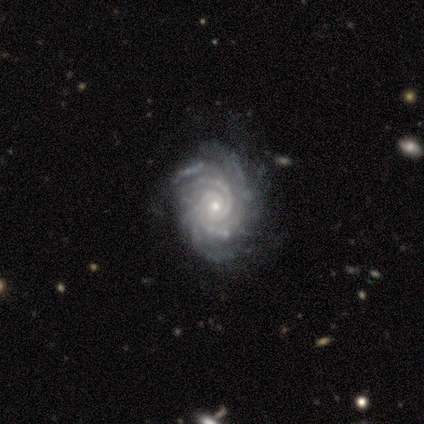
This appears to be a featured or disk galaxy (91%) with no bar (74%), more than 4 (36%) tight (81%) spiral arms (100%) and a small central bulge (67%). Merging: none (76%).